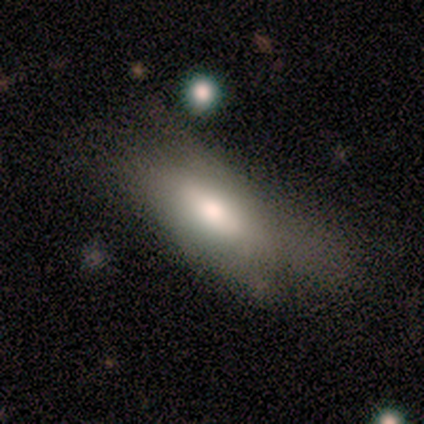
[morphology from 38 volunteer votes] Volunteers were most divided on "merging": minor disturbance: 39%, major disturbance: 33%, none: 28%, merger: 0%. More confident: how rounded — in between (92%); smooth or featured — smooth (68%).